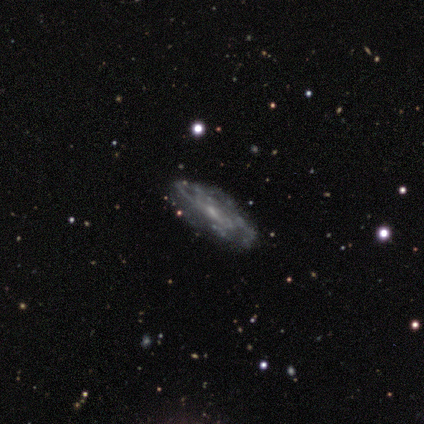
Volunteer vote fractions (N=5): smooth-or-featured: featured or disk: 80% | star or artifact: 20% | smooth: 0%
  disk-edge-on: no: 100% | yes: 0%
    bar: no: 75% | weak: 25% | strong: 0%
    has-spiral-arms: yes: 100% | no: 0%
      spiral-winding: tight: 100% | medium: 0% | loose: 0%
      spiral-arm-count: can't tell: 100% | 1: 0% | 2: 0% | 3: 0% | 4: 0% | more than 4: 0%
    bulge-size: small: 75% | moderate: 25% | dominant: 0% | large: 0% | none: 0%
  merging: none: 100% | minor disturbance: 0% | major disturbance: 0% | merger: 0%